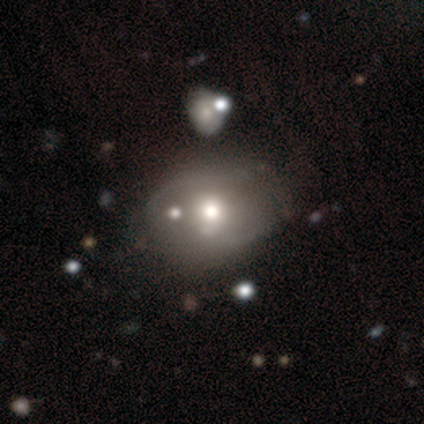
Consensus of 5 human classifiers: Smooth or featured? smooth (40%, tied with featured or disk)
How rounded? in between (100%)
Merging? none (50%, tied with minor disturbance)